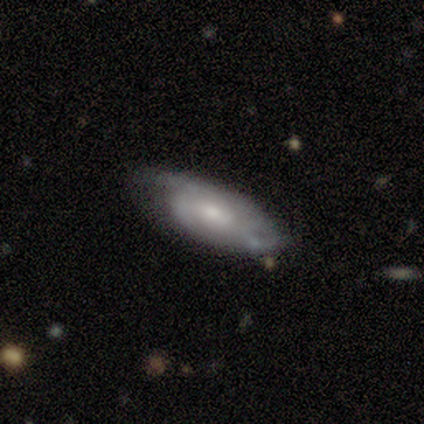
Smooth or featured: featured or disk — 60% (smooth — 40%)
Edge-on disk: no — 67% (yes — 33%)
Bar: weak — 50% (tied with no — 50%)
Spiral arms: yes — 100%
Spiral winding: tight — 50% (tied with medium — 50%)
Spiral arm count: can't tell — 100%
Bulge size: moderate — 100%
Merging: none — 60% (major disturbance — 40%)